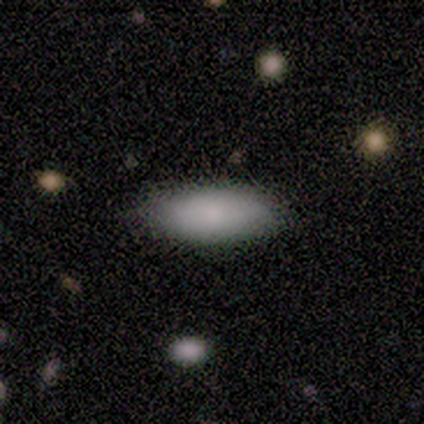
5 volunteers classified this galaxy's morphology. smooth-or-featured: smooth: 100% | featured or disk: 0% | star or artifact: 0%
  how-rounded: in between: 60% | cigar-shaped: 40% | round: 0%
  merging: none: 60% | minor disturbance: 40% | major disturbance: 0% | merger: 0%